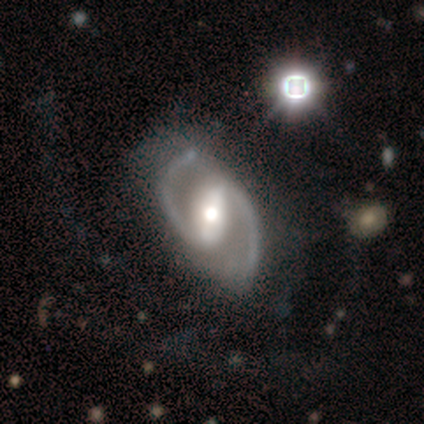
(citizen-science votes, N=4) Smooth or featured? featured or disk (100%)
Edge-on disk? no (100%)
Bar? strong (75%)
Spiral arms? yes (75%)
Spiral winding? medium (67%)
Spiral arm count? 2 (100%)
Bulge size? moderate (75%)
Merging? none (100%)